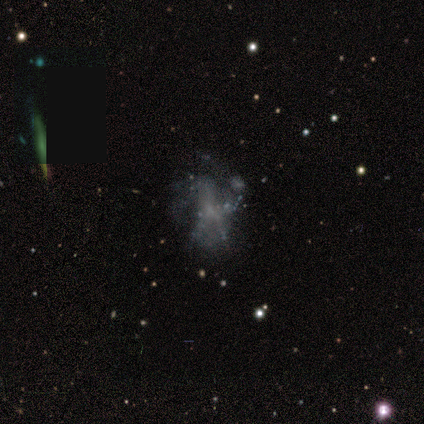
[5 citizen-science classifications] featured or disk 80%, smooth 20%, star or artifact 0%. Down the decision tree: edge-on disk — no (100%); bar — no (100%); spiral arms — no (75%); bulge size — none (100%); merging — major disturbance (60%).